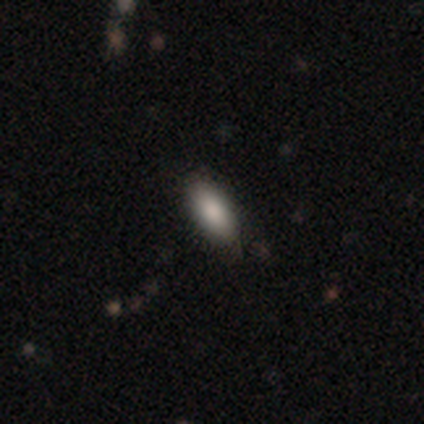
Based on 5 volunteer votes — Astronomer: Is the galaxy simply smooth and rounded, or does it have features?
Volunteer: smooth — 100%.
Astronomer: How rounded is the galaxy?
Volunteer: in between — 100%.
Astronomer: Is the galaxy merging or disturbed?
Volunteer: none — 80%.